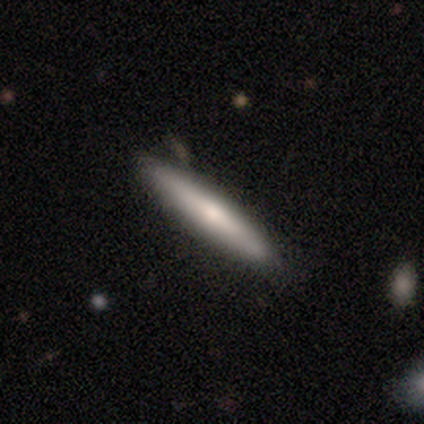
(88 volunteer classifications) smooth_or_featured: smooth (p=0.68) [alt: featured or disk p=0.26]
how_rounded: cigar-shaped (p=0.93) [alt: in between p=0.07]
merging: none (p=0.93) [alt: minor disturbance p=0.06]